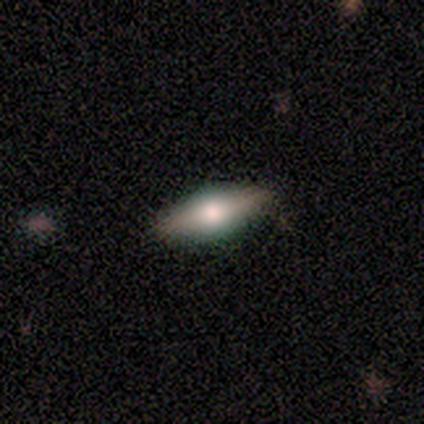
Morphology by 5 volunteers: featured or disk 60%, smooth 40%, star or artifact 0%. Down the decision tree: edge-on disk — yes (100%); edge-on bulge — rounded (100%); merging — none (80%).